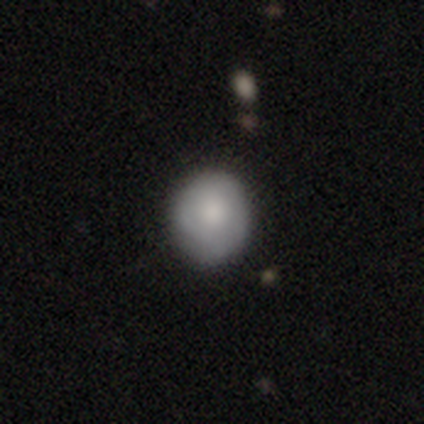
This is likely a smooth galaxy (60%). How rounded: clearly round (100%). Merging: clearly none (80%).